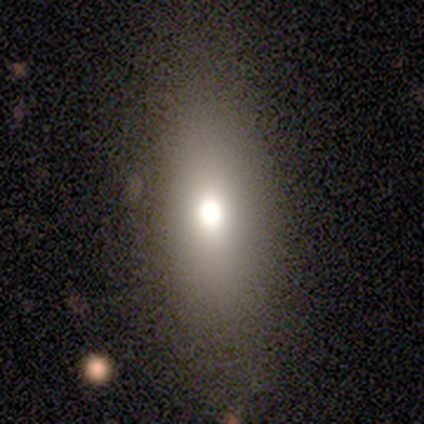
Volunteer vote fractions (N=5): A smooth galaxy with no disk features (60%) that is in between round and cigar-shaped (67%).

Vote fractions:
- Smooth or featured? smooth: 60% / featured or disk: 40% / star or artifact: 0%
- How rounded? in between: 67% / cigar-shaped: 33% / round: 0%
- Merging? none: 60% / minor disturbance: 20% / major disturbance: 20% / merger: 0%